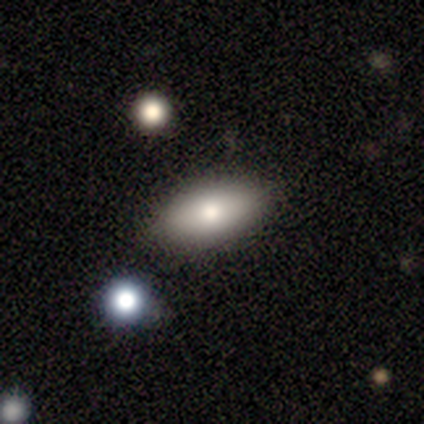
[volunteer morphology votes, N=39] This appears to be a smooth galaxy with no disk features (74%) that is in between round and cigar-shaped (86%). Merging: none (67%).